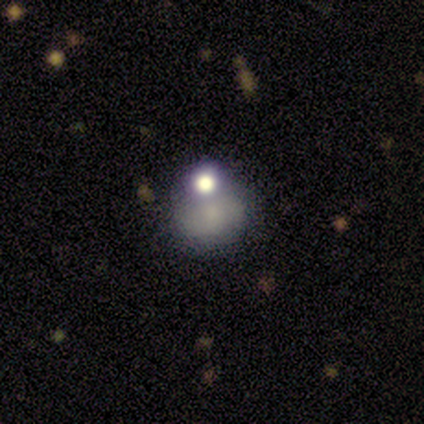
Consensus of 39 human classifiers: smooth 46%, featured or disk 28%, star or artifact 26%. Down the decision tree: how rounded — round (50%, tied with in between); merging — none (34%).